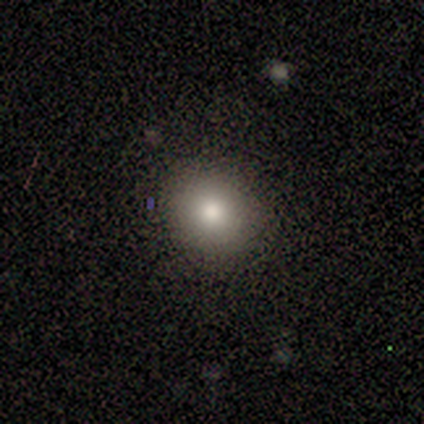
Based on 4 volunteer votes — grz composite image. It shows a smooth galaxy with no disk features (75%) that is in between round and cigar-shaped (67%). Merging: none (100%).